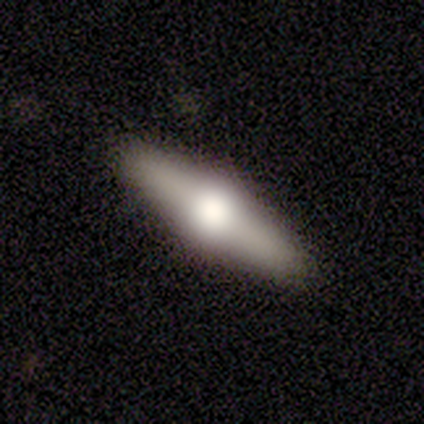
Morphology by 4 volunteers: This is clearly a featured or disk galaxy (100%). It is clearly viewed edge-on (100%). Edge-on bulge: clearly rounded (100%). Merging: clearly none (100%).